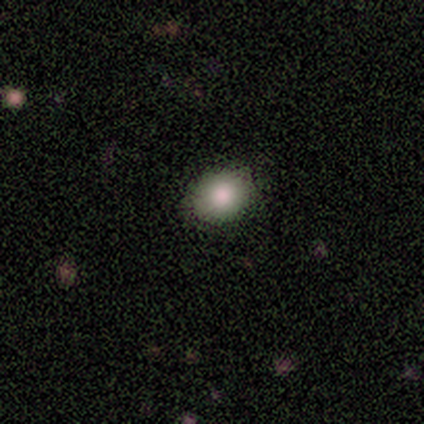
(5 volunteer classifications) A smooth galaxy with no disk features (80%) that is round (50%, tied with in between).

Vote fractions:
- Smooth or featured? smooth: 80% / star or artifact: 20% / featured or disk: 0%
- How rounded? round: 50% (tied) / in between: 50% (tied) / cigar-shaped: 0%
- Merging? none: 100% / minor disturbance: 0% / major disturbance: 0% / merger: 0%